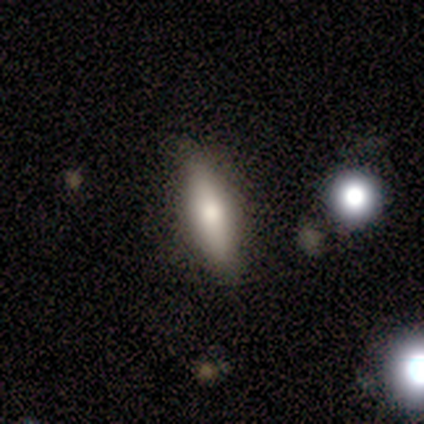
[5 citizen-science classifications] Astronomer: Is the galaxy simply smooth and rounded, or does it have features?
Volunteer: smooth — 80%.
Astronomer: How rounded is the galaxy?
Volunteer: cigar-shaped — 75%.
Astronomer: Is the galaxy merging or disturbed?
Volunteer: none — 100%.